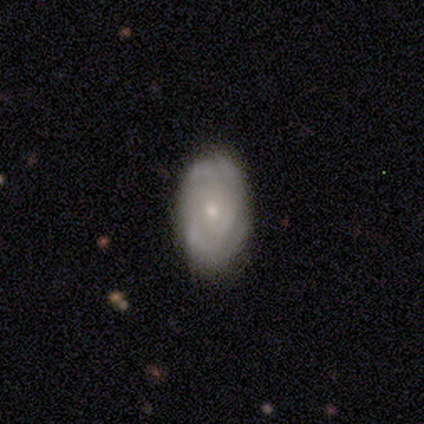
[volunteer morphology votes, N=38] Smooth or featured? featured or disk (63%)
Edge-on disk? no (100%)
Bar? no (71%)
Spiral arms? yes (75%)
Spiral winding? tight (56%)
Spiral arm count? can't tell (44%)
Bulge size? small (79%)
Merging? none (81%)